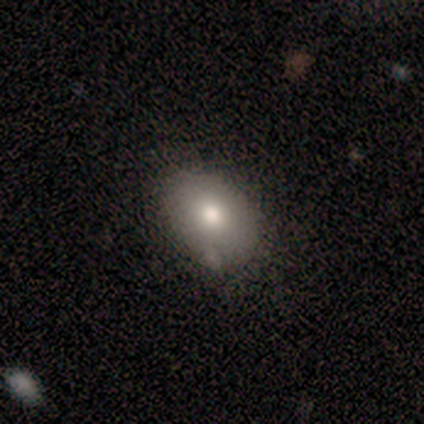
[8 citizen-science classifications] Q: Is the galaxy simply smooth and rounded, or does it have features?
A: smooth — 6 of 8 (75%).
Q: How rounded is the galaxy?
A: in between — 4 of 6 (67%).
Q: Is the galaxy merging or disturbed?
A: none — 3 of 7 (43%, tied with minor disturbance).